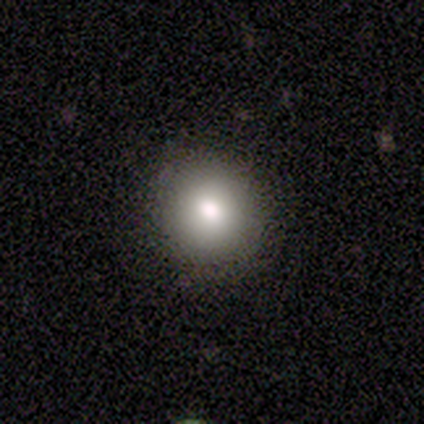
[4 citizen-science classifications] Volunteers were most divided on "smooth or featured": smooth: 50%, featured or disk: 25%, star or artifact: 25%. More confident: how rounded — round (100%); merging — none (100%).